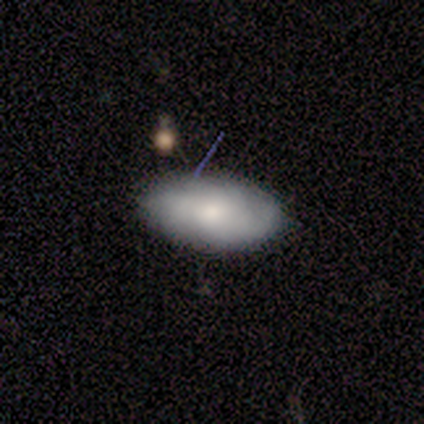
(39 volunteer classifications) smooth-or-featured: smooth: 54% | featured or disk: 41% | star or artifact: 5%
  how-rounded: in between: 90% | round: 10% | cigar-shaped: 0%
  merging: none: 73% | minor disturbance: 14% | major disturbance: 14% | merger: 0%